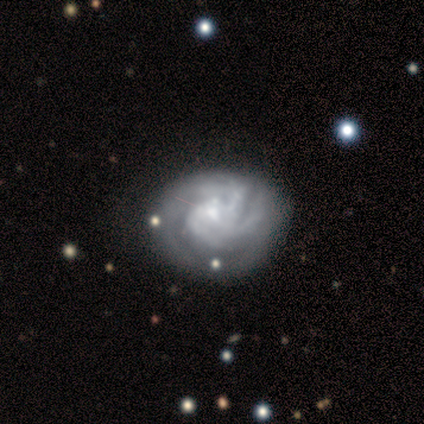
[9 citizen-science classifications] Overall: featured or disk (100%). Edge-on disk: no (100%). Bar: no (56%; weak 33%). Spiral arms: yes (100%). Spiral arm count: can't tell (44%; 2 22%). Spiral winding: tight (67%). Bulge size: small (44%; moderate 33%). Merging: none (78%).